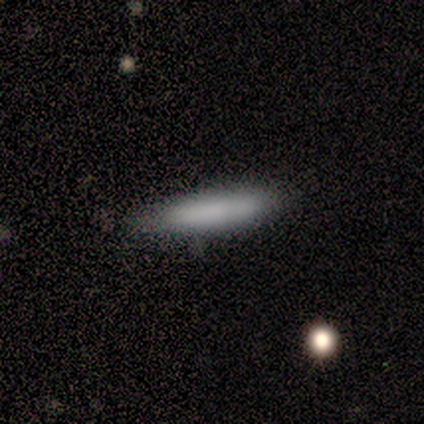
smooth 80%, star or artifact 20%, featured or disk 0%. Down the decision tree: how rounded — cigar-shaped (100%); merging — none (100%).